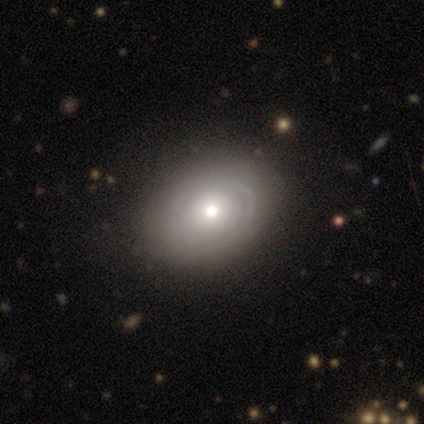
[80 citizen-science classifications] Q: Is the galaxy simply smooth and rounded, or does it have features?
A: featured or disk — 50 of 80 (62%).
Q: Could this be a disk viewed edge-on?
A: no — 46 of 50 (92%).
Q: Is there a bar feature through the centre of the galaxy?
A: no — 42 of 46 (91%).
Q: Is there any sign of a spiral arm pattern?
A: yes — 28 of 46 (61%).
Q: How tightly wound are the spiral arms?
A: tight — 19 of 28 (68%).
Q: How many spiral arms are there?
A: can't tell — 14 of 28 (50%).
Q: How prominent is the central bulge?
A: moderate — 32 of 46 (70%).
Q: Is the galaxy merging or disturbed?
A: none — 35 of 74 (47%).